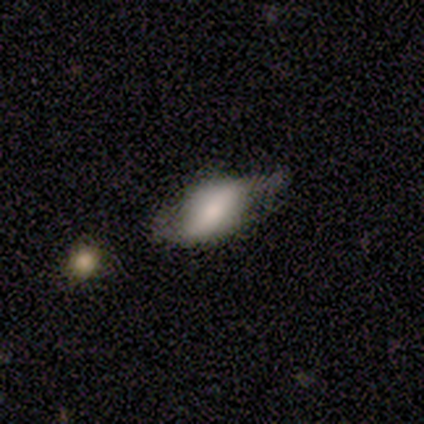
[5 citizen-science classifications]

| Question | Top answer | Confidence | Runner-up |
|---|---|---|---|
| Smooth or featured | smooth | 60% | featured or disk (20%) |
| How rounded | in between | 100% | — |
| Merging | minor disturbance | 50% | tied: major disturbance (50%) |